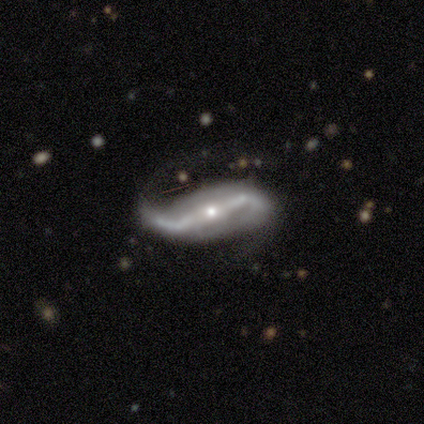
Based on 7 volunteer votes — This is clearly a featured or disk galaxy (100%). It is clearly not viewed edge-on (100%). Bar: clearly strong (100%). Spiral arm pattern: clearly yes (100%). Spiral arm count: clearly 2 (100%). Spiral winding: likely loose (71%). Central bulge: possibly small (57%). Merging: possibly minor disturbance (57%).